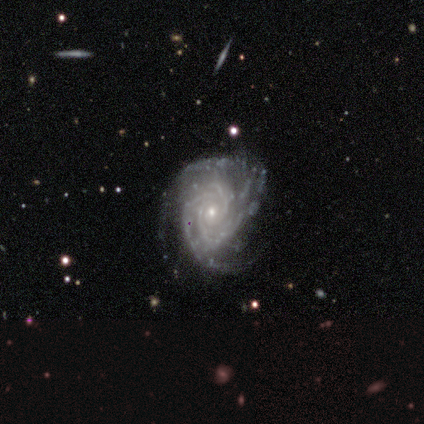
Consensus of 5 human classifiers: Overall: featured or disk (100%). Edge-on disk: no (100%). Bar: no (80%). Spiral arms: yes (100%). Spiral arm count: 3 (80%). Spiral winding: tight (40%, tied with medium). Bulge size: small (100%). Merging: none (80%).